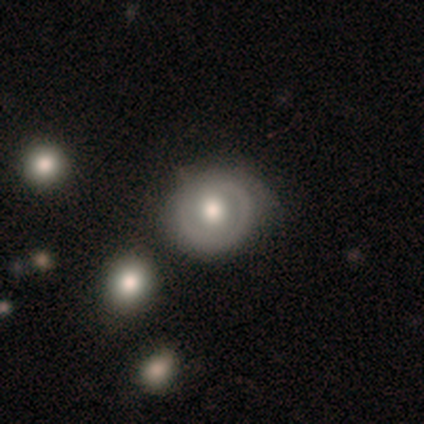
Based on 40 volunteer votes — This is possibly a featured or disk galaxy (52%). It is clearly not viewed edge-on (95%). Bar: likely no (75%). Spiral arm pattern: possibly yes (55%). Spiral arm count: likely 1 (64%). Spiral winding: possibly tight (55%). Central bulge: likely moderate (70%). Merging: possibly none (59%).